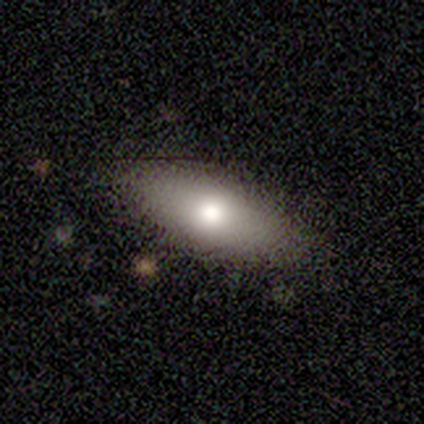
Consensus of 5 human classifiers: smooth 80%, featured or disk 20%, star or artifact 0%. Down the decision tree: how rounded — in between (75%); merging — none (80%).